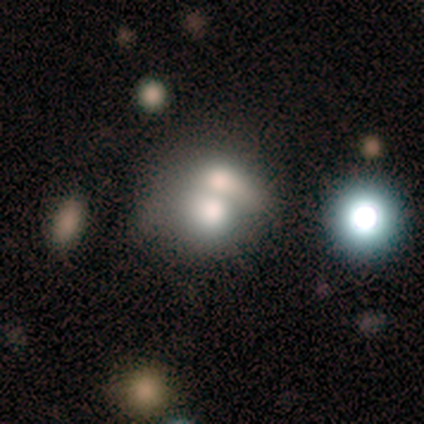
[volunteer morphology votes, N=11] Smooth or featured?
  - smooth: 82% *
  - featured or disk: 18%
  - star or artifact: 0%
How rounded?
  - round: 56% *
  - in between: 44%
  - cigar-shaped: 0%
Merging?
  - merger: 91% *
  - none: 9%
  - minor disturbance: 0%
  - major disturbance: 0%